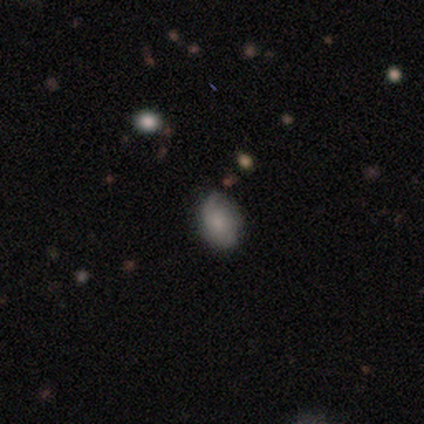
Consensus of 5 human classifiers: This appears to be a smooth galaxy with no disk features (80%) that is in between round and cigar-shaped (100%). Merging: none (80%).